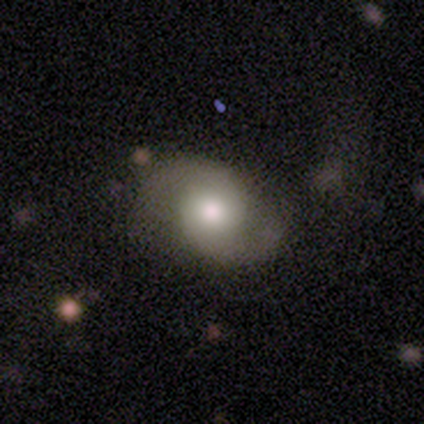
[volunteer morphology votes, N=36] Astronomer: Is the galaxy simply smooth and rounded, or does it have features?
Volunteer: featured or disk — 64%.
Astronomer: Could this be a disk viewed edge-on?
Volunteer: no — 91%.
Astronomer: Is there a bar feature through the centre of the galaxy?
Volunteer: no — 76%.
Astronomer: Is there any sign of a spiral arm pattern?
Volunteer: yes — 95%.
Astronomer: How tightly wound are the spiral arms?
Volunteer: medium — 50% (runner-up: loose, 35%).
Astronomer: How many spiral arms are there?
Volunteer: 2 — 100%.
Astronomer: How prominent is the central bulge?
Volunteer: moderate — 67%.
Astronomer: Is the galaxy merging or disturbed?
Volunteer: none — 78%.